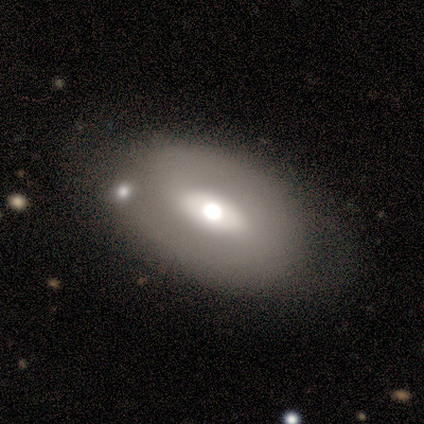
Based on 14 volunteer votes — This appears to be a featured or disk galaxy (50%) with a strong bar (57%), no spiral arms (57%) and a large central bulge (43%, tied with moderate). Merging: none (54%).